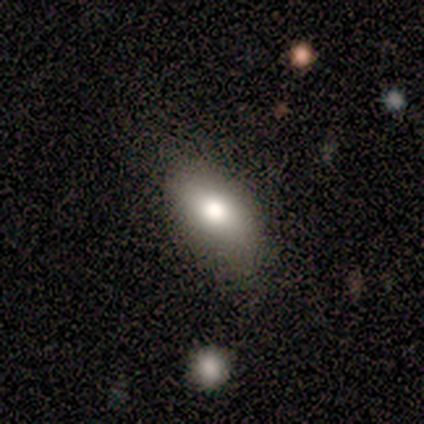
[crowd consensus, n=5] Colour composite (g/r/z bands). It shows a smooth galaxy with no disk features (80%) that is in between round and cigar-shaped (100%). Merging: none (80%).